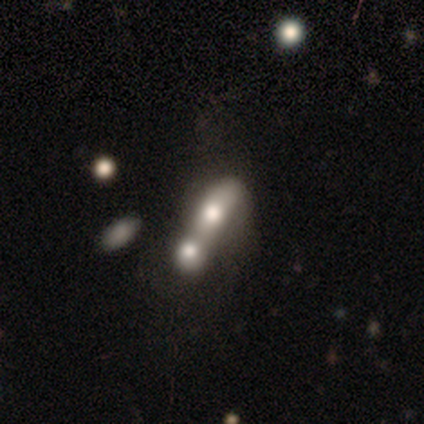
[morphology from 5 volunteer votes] smooth_or_featured: featured or disk (p=0.60) [alt: smooth p=0.40]
disk_edge_on: no (p=1.00)
bar: no (p=1.00)
has_spiral_arms: no (p=1.00)
bulge_size: large (p=0.33) [tied with: moderate p=0.33, small p=0.33]
merging: merger (p=0.60) [alt: none p=0.20]